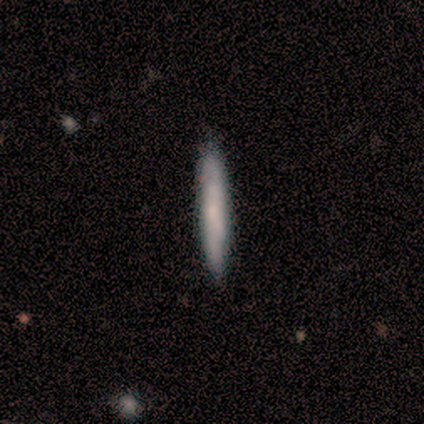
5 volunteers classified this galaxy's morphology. Smooth or featured: smooth — 60% (featured or disk — 40%)
How rounded: cigar-shaped — 100%
Merging: none — 80% (minor disturbance — 20%)